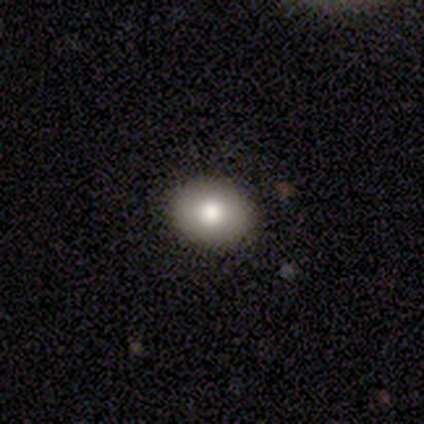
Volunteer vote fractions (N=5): A smooth galaxy with no disk features (80%) that is in between round and cigar-shaped (75%).

Vote fractions:
- Smooth or featured? smooth: 80% / featured or disk: 20% / star or artifact: 0%
- How rounded? in between: 75% / round: 25% / cigar-shaped: 0%
- Merging? none: 100% / minor disturbance: 0% / major disturbance: 0% / merger: 0%